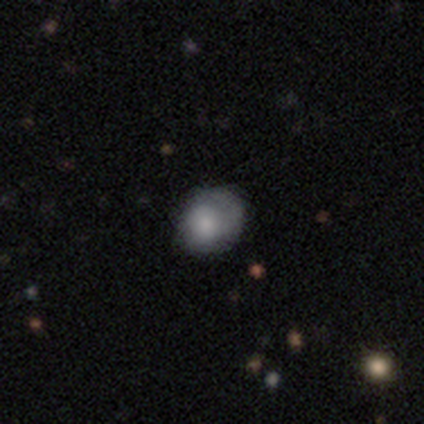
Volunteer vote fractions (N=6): Q: Smooth or featured?
A: smooth (83%); runner-up: featured or disk (17%)
Q: How rounded?
A: round (80%); runner-up: in between (20%)
Q: Merging?
A: none (33%); tied with: minor disturbance (33%); major disturbance (33%)